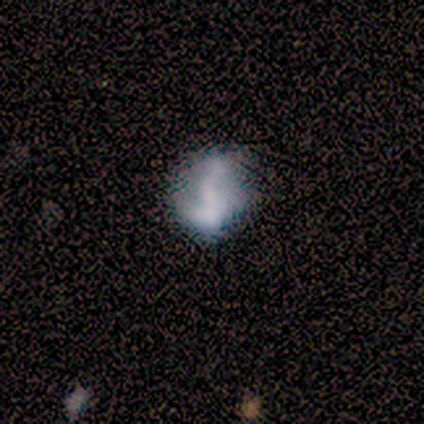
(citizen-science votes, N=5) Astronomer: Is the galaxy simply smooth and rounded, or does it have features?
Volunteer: smooth — 40%, tied with featured or disk at 40%.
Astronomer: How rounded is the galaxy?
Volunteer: in between — 100%.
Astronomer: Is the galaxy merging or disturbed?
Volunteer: none — 50%.